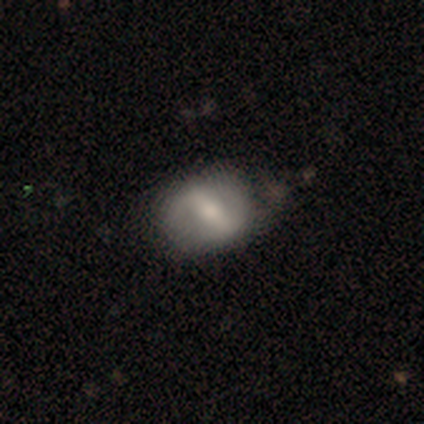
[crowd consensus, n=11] Smooth or featured: featured or disk — 73% (smooth — 27%)
Edge-on disk: no — 100%
Bar: weak — 50% (strong — 38%)
Spiral arms: no — 62% (yes — 38%)
Bulge size: moderate — 75% (small — 12%)
Merging: none — 82% (minor disturbance — 18%)